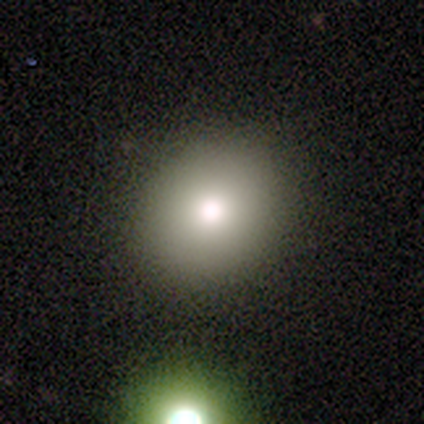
Morphology: type=smooth (80%); roundness=round (75%); merging=none (100%).